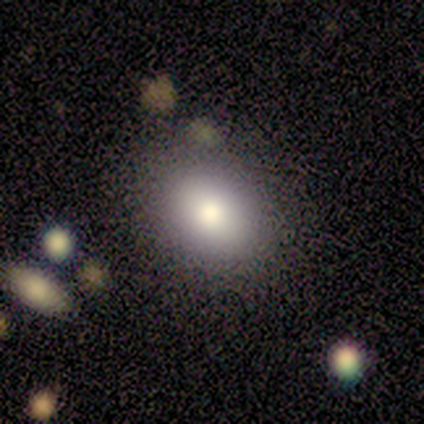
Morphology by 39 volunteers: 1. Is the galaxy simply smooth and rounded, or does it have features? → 77% smooth, 13% star or artifact, 10% featured or disk.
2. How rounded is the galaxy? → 53% in between, 47% round, 0% cigar-shaped.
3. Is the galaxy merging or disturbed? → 68% none, 18% minor disturbance, 9% major disturbance, 6% merger.